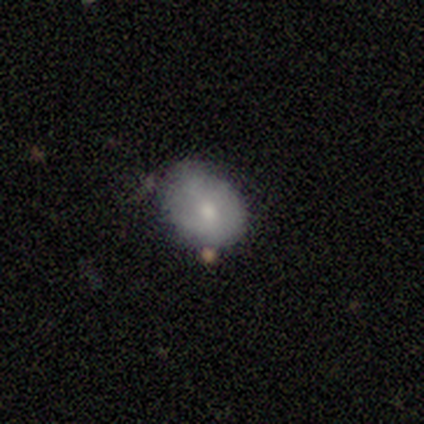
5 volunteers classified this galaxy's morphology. This is likely a featured or disk galaxy (60%). It is clearly not viewed edge-on (100%). Bar: likely no (67%). Spiral arm pattern: likely no (67%). Central bulge: marginally moderate (33%, tied with small and none). Merging: likely minor disturbance (60%).